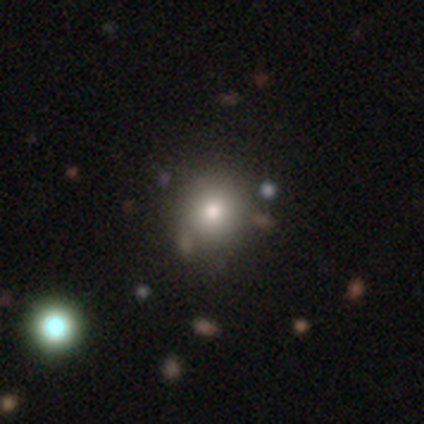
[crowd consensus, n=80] smooth 78%, star or artifact 16%, featured or disk 6%. Down the decision tree: how rounded — round (92%); merging — none (40%).